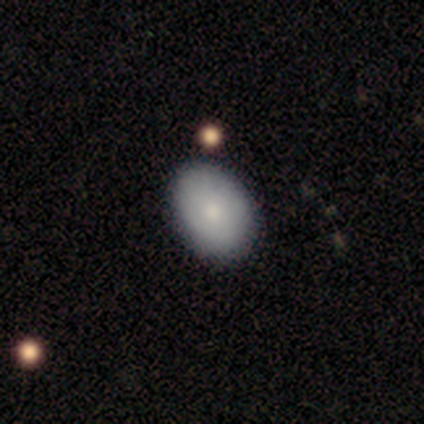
A smooth galaxy with no disk features (75%) that is in between round and cigar-shaped (75%). Merging: none (87%).